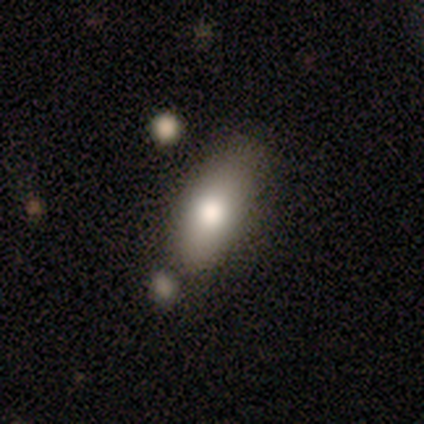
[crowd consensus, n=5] Smooth or featured?
  - smooth: 60% *
  - featured or disk: 40%
  - star or artifact: 0%
How rounded?
  - in between: 67% *
  - cigar-shaped: 33%
  - round: 0%
Merging?
  - minor disturbance: 60% *
  - none: 40%
  - major disturbance: 0%
  - merger: 0%